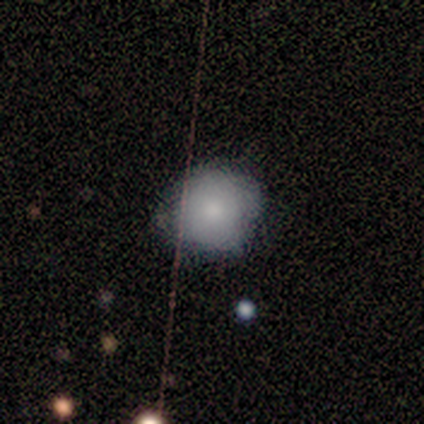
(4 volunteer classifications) Smooth or featured?
  - smooth: 100% *
  - featured or disk: 0%
  - star or artifact: 0%
How rounded?
  - round: 100% *
  - in between: 0%
  - cigar-shaped: 0%
Merging?
  - none: 75% *
  - minor disturbance: 25%
  - major disturbance: 0%
  - merger: 0%